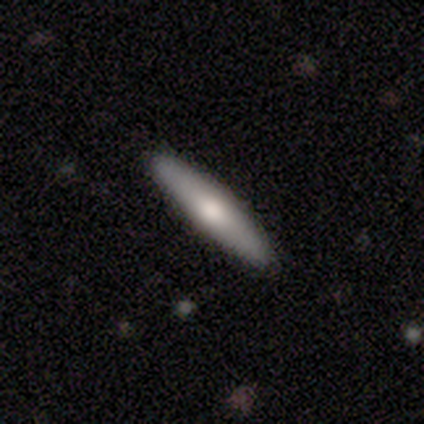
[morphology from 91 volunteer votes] A smooth galaxy with no disk features (66%) that is cigar-shaped (97%).

Vote fractions:
- Smooth or featured? smooth: 66% / featured or disk: 32% / star or artifact: 2%
- How rounded? cigar-shaped: 97% / in between: 3% / round: 0%
- Merging? none: 88% / minor disturbance: 10% / major disturbance: 1% / merger: 1%